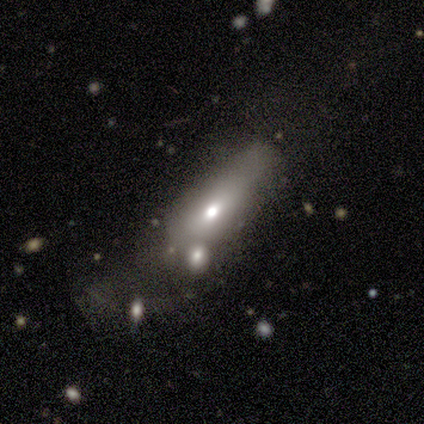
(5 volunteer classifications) Smooth or featured?
  - smooth: 60% *
  - featured or disk: 40%
  - star or artifact: 0%
How rounded?
  - in between: 67% *
  - cigar-shaped: 33%
  - round: 0%
Merging?
  - minor disturbance: 40% *
  - none: 20%
  - major disturbance: 20%
  - merger: 20%